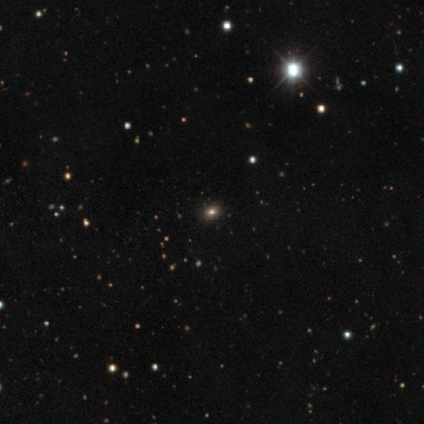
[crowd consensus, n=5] This appears to be a star or artifact, not a galaxy (60%).